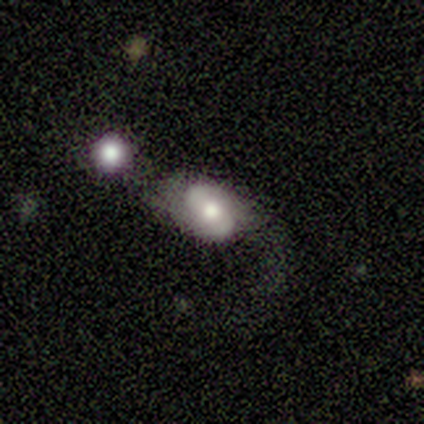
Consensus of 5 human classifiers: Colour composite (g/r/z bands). It shows a featured or disk galaxy (60%) with a weak bar (67%), 2 (67%) medium (67%) spiral arms (100%) and a moderate central bulge (100%). Merging: none (40%, tied with merger).